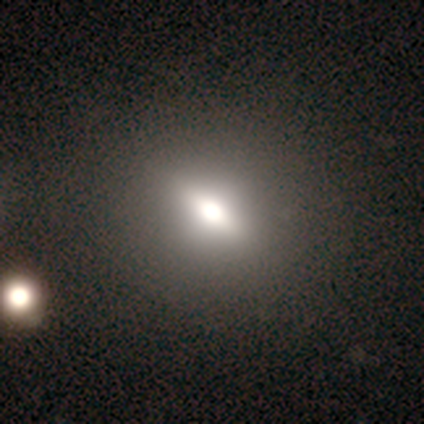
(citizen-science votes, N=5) smooth 80%, featured or disk 20%, star or artifact 0%. Down the decision tree: how rounded — round (75%); merging — none (60%).